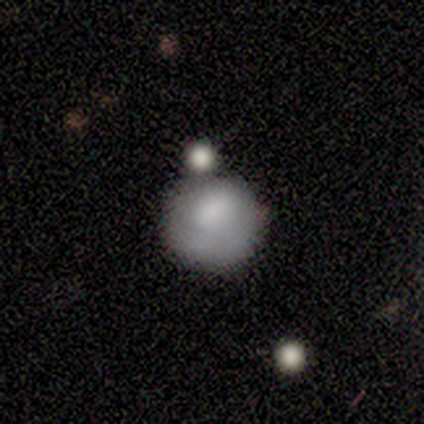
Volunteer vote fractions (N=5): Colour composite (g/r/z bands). It shows a smooth galaxy with no disk features (100%) that is round (100%). Merging: none (80%).